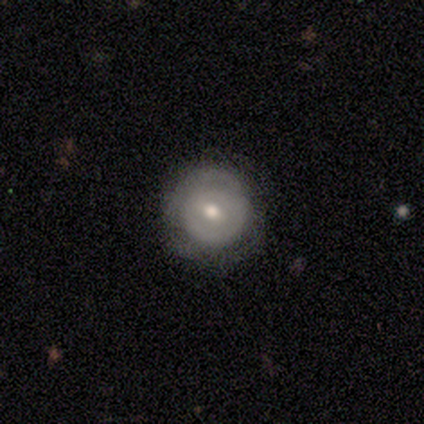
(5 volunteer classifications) Smooth or featured? featured or disk (60%)
Edge-on disk? no (100%)
Bar? no (67%)
Spiral arms? no (67%)
Bulge size? moderate (100%)
Merging? none (80%)